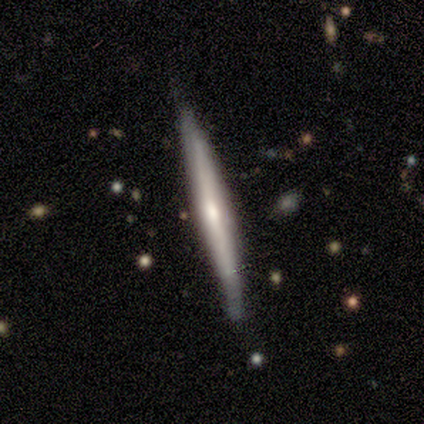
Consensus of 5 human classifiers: This is clearly a featured or disk galaxy (100%). It is clearly viewed edge-on (100%). Edge-on bulge: clearly boxy (80%). Merging: clearly none (80%).